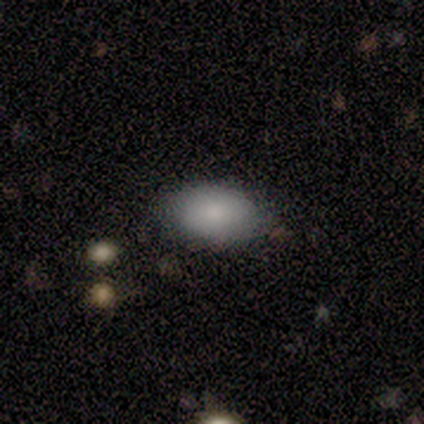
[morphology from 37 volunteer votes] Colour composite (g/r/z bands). It shows a smooth galaxy with no disk features (86%) that is in between round and cigar-shaped (91%). Merging: none (89%).